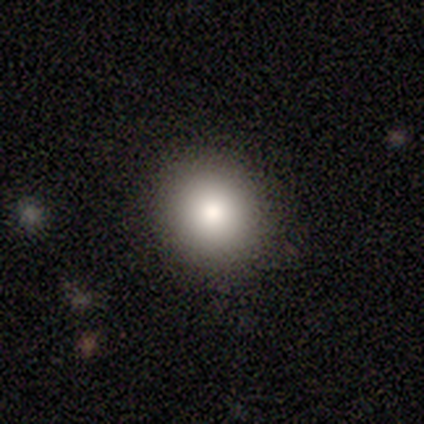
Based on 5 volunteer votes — smooth_or_featured: smooth (p=0.60) [alt: featured or disk p=0.20]
how_rounded: round (p=1.00)
merging: none (p=1.00)